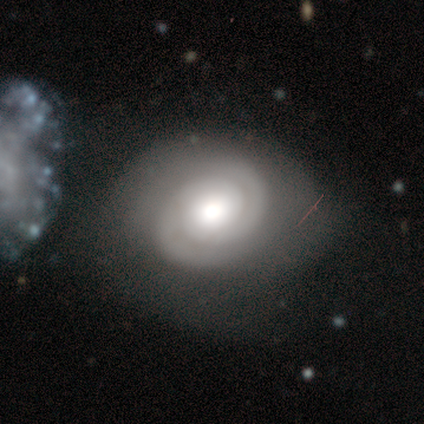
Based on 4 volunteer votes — Morphology: type=featured or disk (75%); edge-on=no (100%); bar=no (100%); spiral arms=yes (100%); winding=tight (100%); arm count=2 (100%); bulge=large (33%, tied with moderate and small); merging=none (50%).